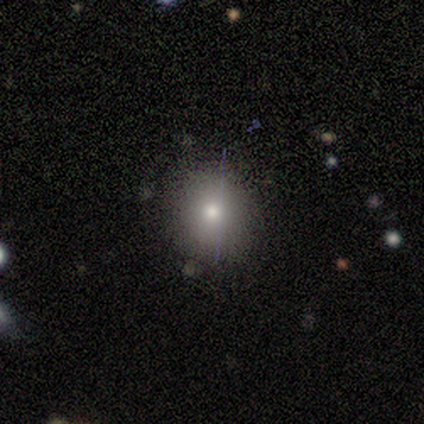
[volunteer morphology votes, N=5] This is likely a smooth galaxy (60%). How rounded: clearly round (100%). Merging: clearly none (100%).